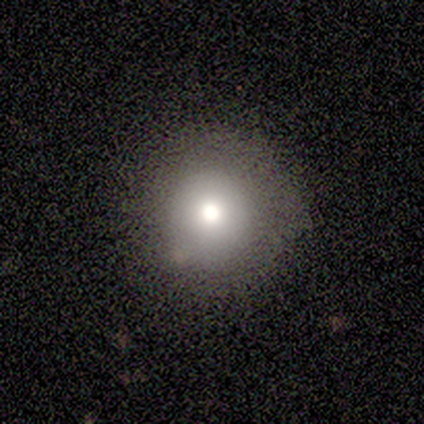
Smooth or featured: smooth — 40% (tied with star or artifact — 40%)
How rounded: round — 100%
Merging: none — 67% (minor disturbance — 33%)